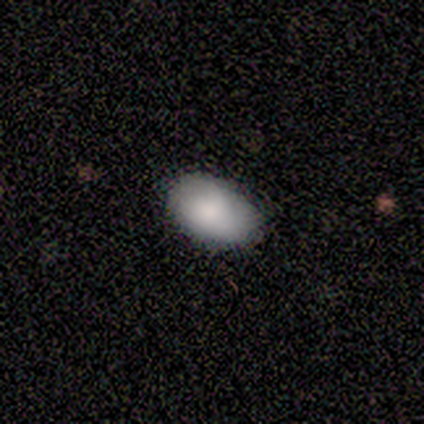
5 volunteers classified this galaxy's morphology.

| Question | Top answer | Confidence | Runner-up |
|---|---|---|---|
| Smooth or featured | smooth | 60% | featured or disk (20%) |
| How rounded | in between | 100% | — |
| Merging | none | 75% | minor disturbance (25%) |